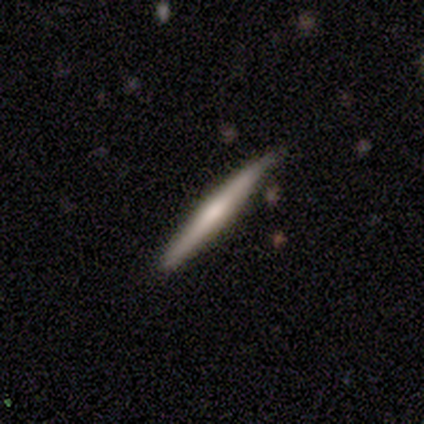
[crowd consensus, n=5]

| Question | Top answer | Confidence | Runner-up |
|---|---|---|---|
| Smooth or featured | smooth | 60% | featured or disk (40%) |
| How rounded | cigar-shaped | 100% | — |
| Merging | none | 100% | — |